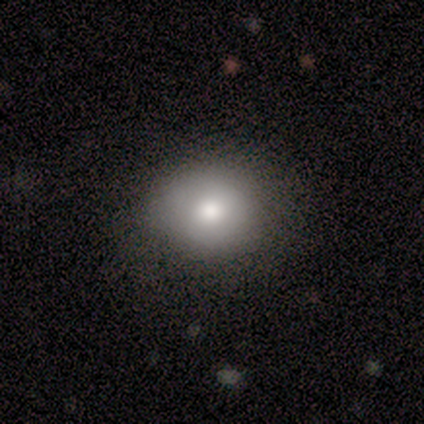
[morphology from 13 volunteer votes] Smooth or featured: smooth — 69% (featured or disk — 15%)
How rounded: round — 44% (tied with in between — 44%)
Merging: none — 64% (minor disturbance — 27%)